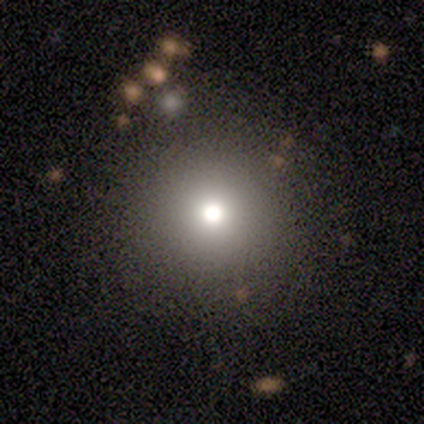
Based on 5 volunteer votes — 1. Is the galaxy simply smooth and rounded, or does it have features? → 60% featured or disk, 20% smooth, 20% star or artifact.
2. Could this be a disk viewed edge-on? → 100% no, 0% yes.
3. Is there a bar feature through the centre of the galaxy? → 67% no, 33% weak, 0% strong.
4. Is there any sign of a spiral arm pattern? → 100% no, 0% yes.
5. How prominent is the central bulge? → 67% moderate, 33% small, 0% dominant, 0% large, 0% none.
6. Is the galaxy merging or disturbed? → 100% none, 0% minor disturbance, 0% major disturbance, 0% merger.